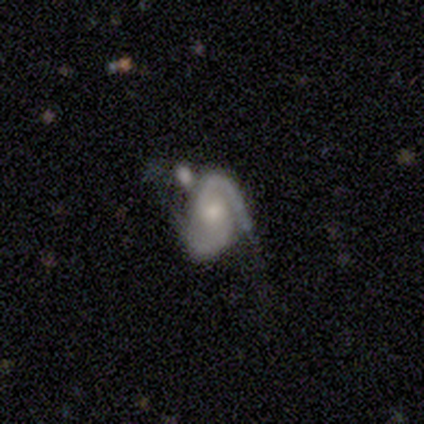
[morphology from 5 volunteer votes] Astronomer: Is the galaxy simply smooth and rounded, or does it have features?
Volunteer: featured or disk — 80%.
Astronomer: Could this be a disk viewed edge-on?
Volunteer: no — 100%.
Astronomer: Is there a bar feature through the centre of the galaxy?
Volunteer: no — 50%.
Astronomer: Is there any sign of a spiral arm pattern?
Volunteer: yes — 100%.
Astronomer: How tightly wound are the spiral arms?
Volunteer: medium — 75%.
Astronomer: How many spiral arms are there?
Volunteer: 2 — 75%.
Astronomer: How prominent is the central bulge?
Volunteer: small — 75%.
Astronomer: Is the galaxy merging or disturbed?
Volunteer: major disturbance — 60%.